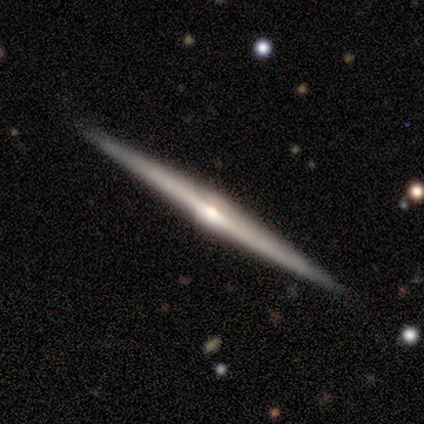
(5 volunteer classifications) featured or disk 100%, smooth 0%, star or artifact 0%. Down the decision tree: edge-on disk — yes (100%); edge-on bulge — rounded (60%); merging — none (100%).